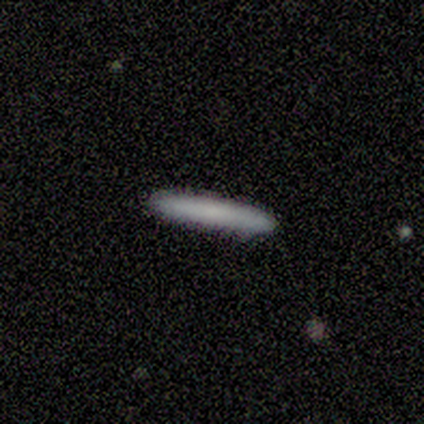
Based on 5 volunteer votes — Smooth or featured?
  - smooth: 100% *
  - featured or disk: 0%
  - star or artifact: 0%
How rounded?
  - cigar-shaped: 100% *
  - round: 0%
  - in between: 0%
Merging?
  - none: 100% *
  - minor disturbance: 0%
  - major disturbance: 0%
  - merger: 0%